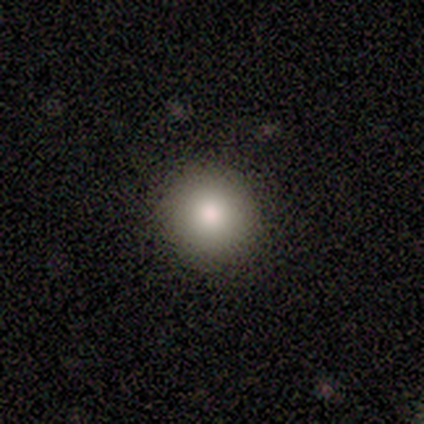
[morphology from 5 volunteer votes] Volunteers were most divided on "how rounded": round: 75%, in between: 25%, cigar-shaped: 0%. More confident: smooth or featured — smooth (80%); merging — none (75%).